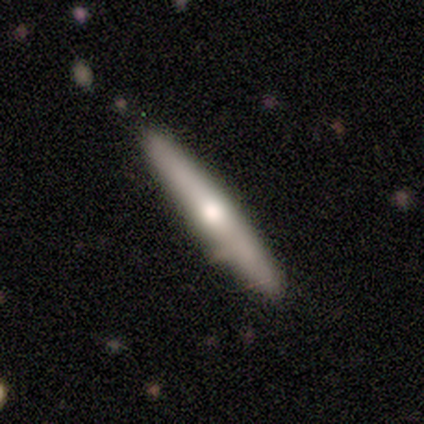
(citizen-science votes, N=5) Overall: smooth (60%; featured or disk 40%). How rounded: cigar-shaped (67%; in between 33%). Merging: none (60%; minor disturbance 40%).